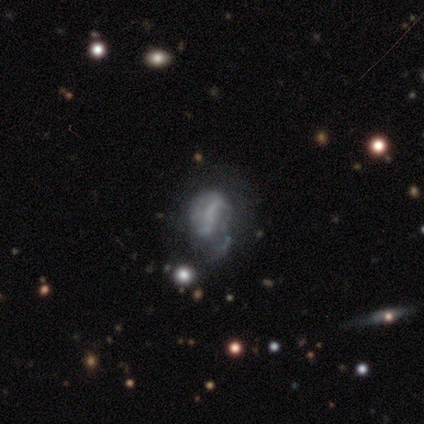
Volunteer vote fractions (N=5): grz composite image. It shows a featured or disk galaxy (60%) with no bar (100%), no spiral arms (100%) and no central bulge (100%). Merging: minor disturbance (80%).